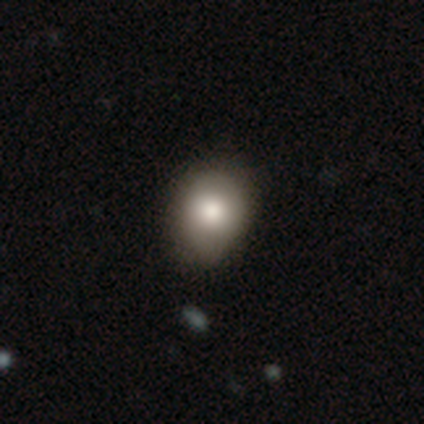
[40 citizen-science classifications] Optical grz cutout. It shows a smooth galaxy with no disk features (82%) that is round (70%). Merging: none (44%).